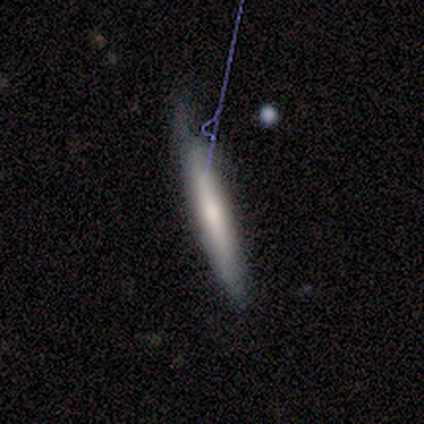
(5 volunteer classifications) Morphology: type=featured or disk (100%); edge-on=yes (80%); edge-on bulge=none (50%, tied with rounded); merging=none (60%).